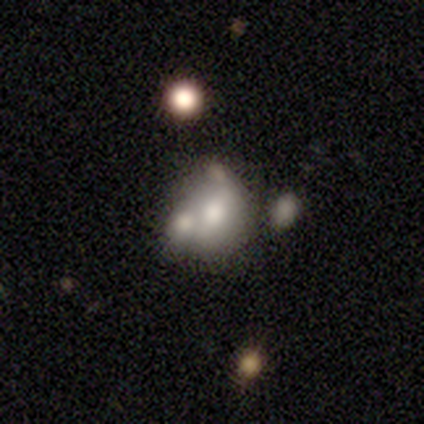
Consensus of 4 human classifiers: A smooth galaxy with no disk features (50%) that is round (100%).

Vote fractions:
- Smooth or featured? smooth: 50% / featured or disk: 25% / star or artifact: 25%
- How rounded? round: 100% / in between: 0% / cigar-shaped: 0%
- Merging? merger: 67% / none: 33% / minor disturbance: 0% / major disturbance: 0%